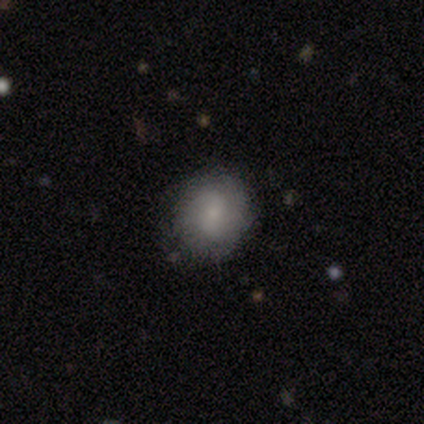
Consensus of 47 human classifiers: smooth_or_featured: smooth (p=0.87) [alt: featured or disk p=0.11]
how_rounded: round (p=0.83) [alt: in between p=0.17]
merging: none (p=0.83) [alt: minor disturbance p=0.11]